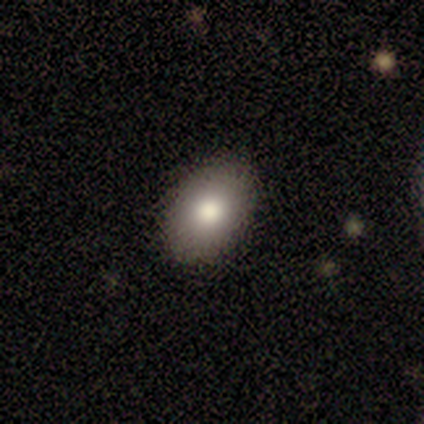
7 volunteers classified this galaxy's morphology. smooth 71%, featured or disk 14%, star or artifact 14%. Down the decision tree: how rounded — in between (80%); merging — none (83%).